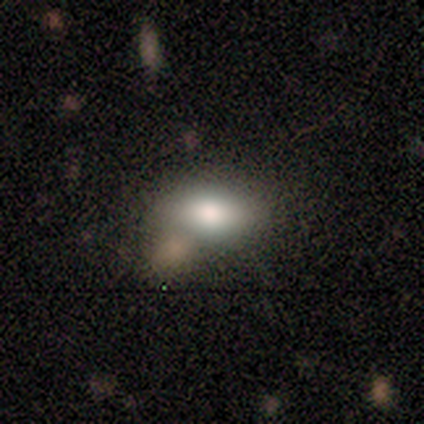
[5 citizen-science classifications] A smooth galaxy with no disk features (100%) that is in between round and cigar-shaped (80%).

Vote fractions:
- Smooth or featured? smooth: 100% / featured or disk: 0% / star or artifact: 0%
- How rounded? in between: 80% / round: 20% / cigar-shaped: 0%
- Merging? none: 60% / minor disturbance: 20% / merger: 20% / major disturbance: 0%